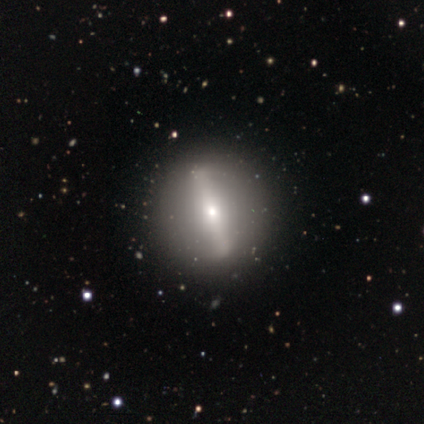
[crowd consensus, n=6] smooth-or-featured: featured or disk: 83% | smooth: 17% | star or artifact: 0%
  disk-edge-on: yes: 80% | no: 20%
    edge-on-bulge: rounded: 100% | boxy: 0% | none: 0%
  merging: none: 83% | minor disturbance: 17% | major disturbance: 0% | merger: 0%